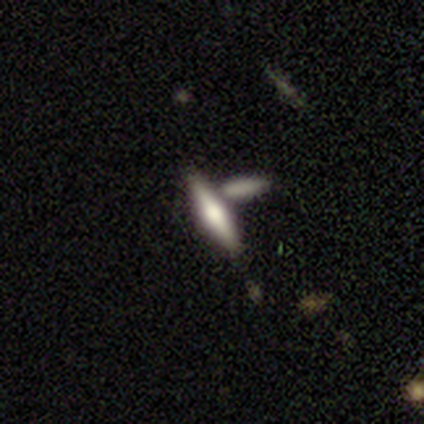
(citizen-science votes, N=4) smooth_or_featured: featured or disk (p=0.75) [alt: smooth p=0.25]
disk_edge_on: yes (p=1.00)
edge_on_bulge: rounded (p=1.00)
merging: none (p=0.50) [alt: minor disturbance p=0.25]